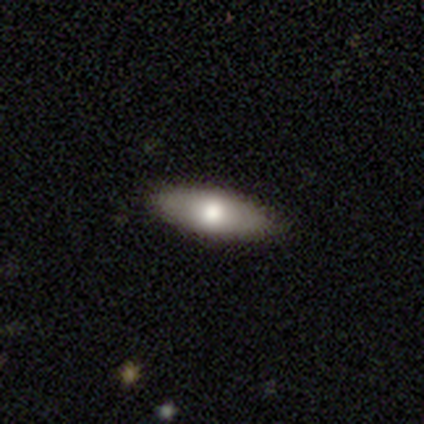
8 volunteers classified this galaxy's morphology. Smooth or featured? smooth (75%)
How rounded? in between (100%)
Merging? none (100%)